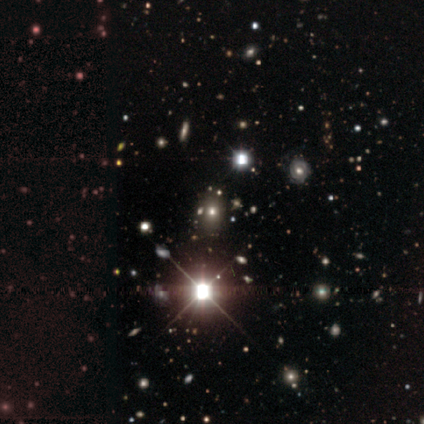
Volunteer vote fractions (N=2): Q: Smooth or featured?
A: smooth (100%)
Q: How rounded?
A: in between (100%)
Q: Merging?
A: none (50%); tied with: merger (50%)